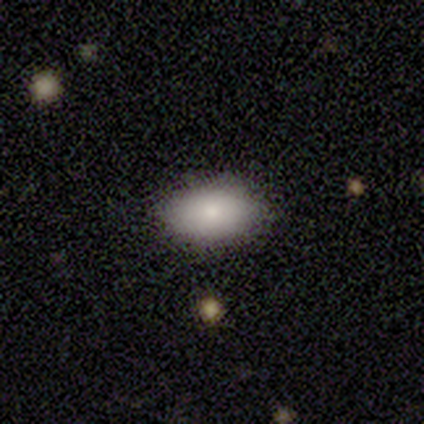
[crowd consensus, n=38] Smooth or featured? smooth (74%)
How rounded? in between (100%)
Merging? none (88%)